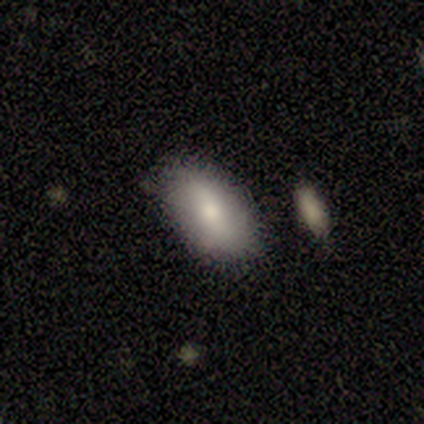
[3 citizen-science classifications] Overall: smooth (67%; featured or disk 33%). How rounded: in between (100%). Merging: none (100%).